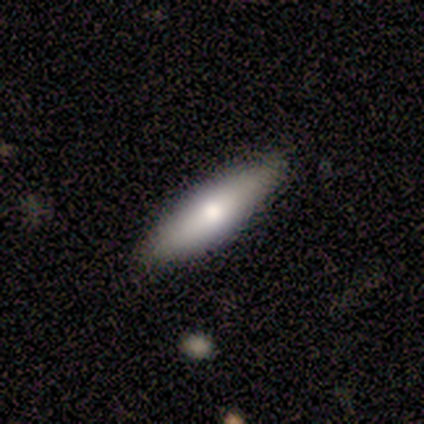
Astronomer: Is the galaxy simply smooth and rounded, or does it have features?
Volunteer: featured or disk — 50%.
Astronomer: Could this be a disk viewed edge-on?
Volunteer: yes — 100%.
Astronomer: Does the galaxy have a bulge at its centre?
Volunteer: boxy — 50%, tied with rounded at 50%.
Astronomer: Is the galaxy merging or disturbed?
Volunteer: none — 100%.